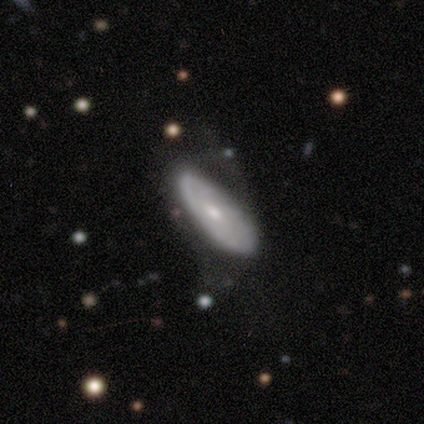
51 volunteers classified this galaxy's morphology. Smooth or featured?
  - featured or disk: 57% *
  - smooth: 43%
  - star or artifact: 0%
Edge-on disk?
  - no: 69% *
  - yes: 31%
Bar?
  - no: 75% *
  - weak: 20%
  - strong: 5%
Spiral arms?
  - no: 55% *
  - yes: 45%
Bulge size?
  - small: 45% *
  - moderate: 40%
  - dominant: 10%
  - none: 5%
  - large: 0%
Merging?
  - none: 41% *
  - minor disturbance: 39%
  - major disturbance: 20%
  - merger: 0%